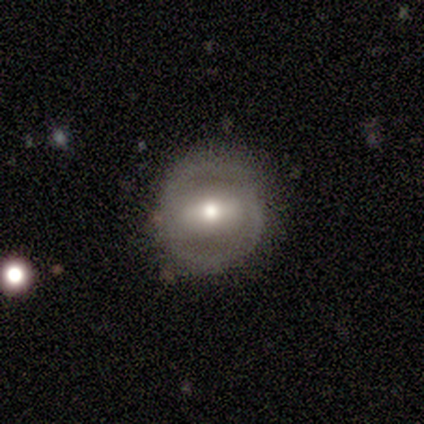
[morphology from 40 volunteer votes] Smooth or featured? 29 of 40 (72%) said featured or disk. Edge-on disk? 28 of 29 (97%) said no. Bar? 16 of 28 (57%) said strong. Spiral arms? 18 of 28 (64%) said yes. Spiral winding? 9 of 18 (50%) said medium. Spiral arm count? 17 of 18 (94%) said 2. Bulge size? 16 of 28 (57%) said moderate. Merging? 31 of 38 (82%) said none.